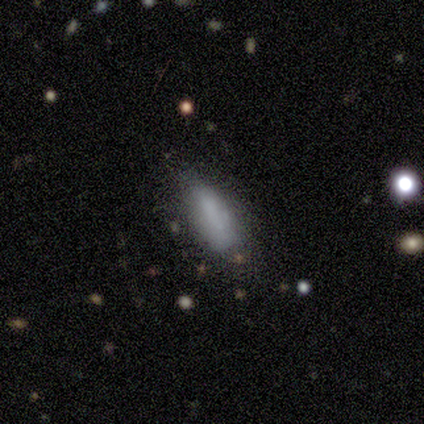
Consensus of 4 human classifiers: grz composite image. It shows a smooth galaxy with no disk features (100%) that is in between round and cigar-shaped (75%). Merging: none (100%).